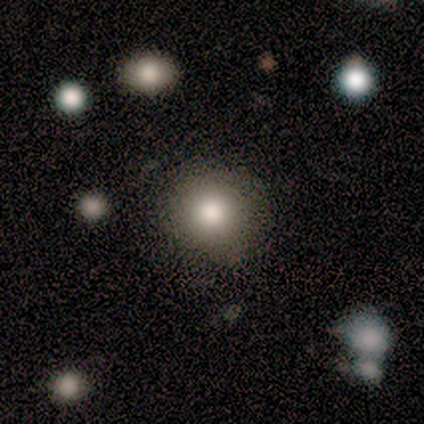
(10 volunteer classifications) This is likely a smooth galaxy (60%). How rounded: clearly round (83%). Merging: likely none (62%).